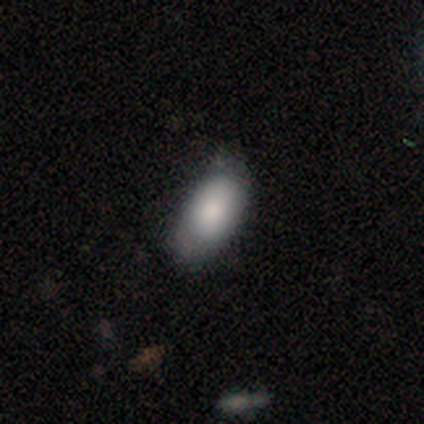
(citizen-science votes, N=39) Overall: smooth (77%). How rounded: in between (90%). Merging: none (64%; minor disturbance 25%).